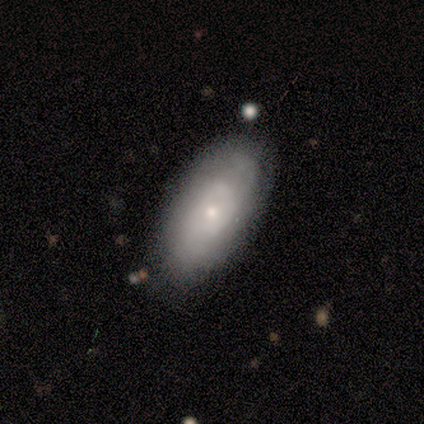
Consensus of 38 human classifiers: Smooth or featured? 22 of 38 (58%) said smooth. How rounded? 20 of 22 (91%) said in between. Merging? 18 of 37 (49%) said none.